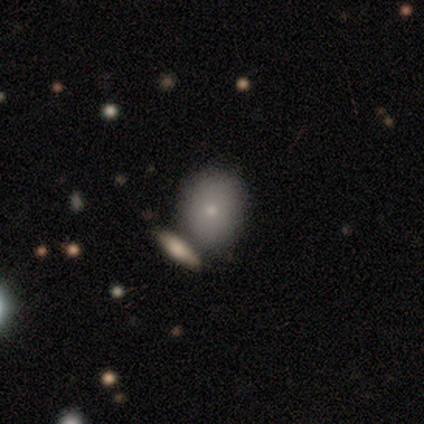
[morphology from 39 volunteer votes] smooth 79%, featured or disk 21%, star or artifact 0%. Down the decision tree: how rounded — round (65%); merging — none (41%).